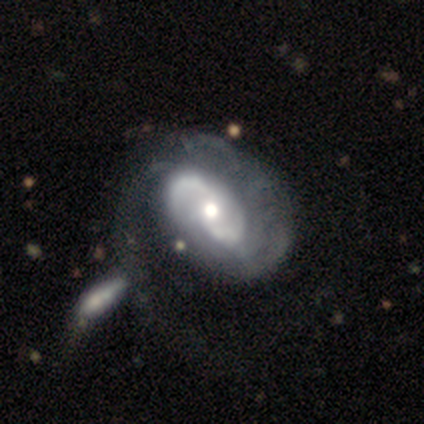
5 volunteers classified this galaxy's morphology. Smooth or featured? featured or disk (100%)
Edge-on disk? no (100%)
Bar? no (80%)
Spiral arms? yes (100%)
Spiral winding? tight (40%, tied with medium)
Spiral arm count? 2 (40%, tied with can't tell)
Bulge size? moderate (100%)
Merging? minor disturbance (40%)